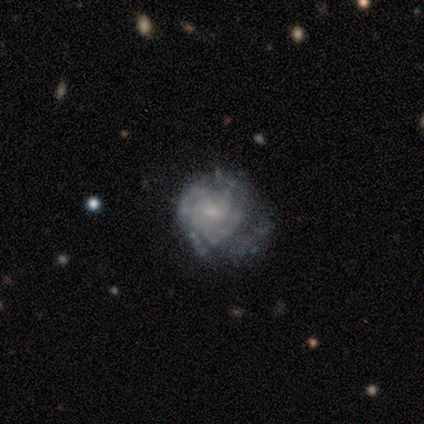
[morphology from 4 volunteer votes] This appears to be a featured or disk galaxy (75%) with no bar (67%), 3 (67%) tight (67%) spiral arms (100%) and a moderate central bulge (33%, tied with small and none). Merging: none (50%, tied with minor disturbance).